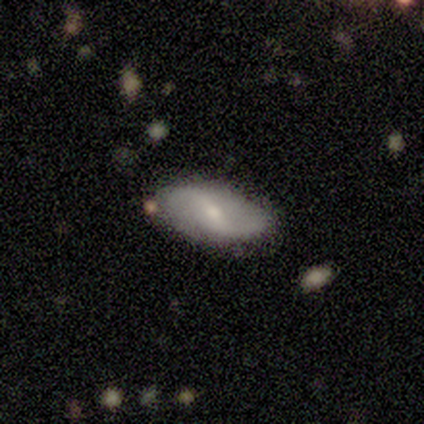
smooth-or-featured: featured or disk: 100% | smooth: 0% | star or artifact: 0%
  disk-edge-on: no: 100% | yes: 0%
    bar: weak: 80% | no: 20% | strong: 0%
    has-spiral-arms: yes: 80% | no: 20%
      spiral-winding: loose: 100% | tight: 0% | medium: 0%
      spiral-arm-count: 2: 75% | can't tell: 25% | 1: 0% | 3: 0% | 4: 0% | more than 4: 0%
    bulge-size: small: 80% | moderate: 20% | dominant: 0% | large: 0% | none: 0%
  merging: none: 100% | minor disturbance: 0% | major disturbance: 0% | merger: 0%